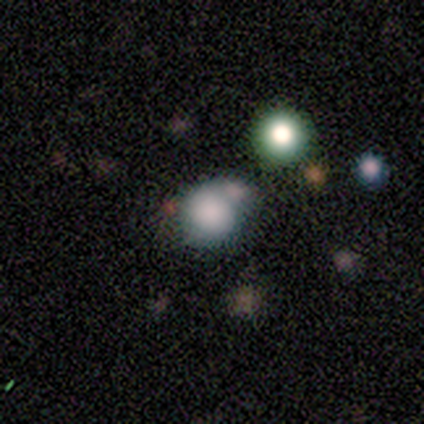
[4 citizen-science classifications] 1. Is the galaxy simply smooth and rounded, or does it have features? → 50% smooth (tied), 50% star or artifact (tied), 0% featured or disk.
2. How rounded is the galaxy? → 100% round, 0% in between, 0% cigar-shaped.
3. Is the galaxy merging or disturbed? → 50% none (tied), 50% minor disturbance (tied), 0% major disturbance, 0% merger.